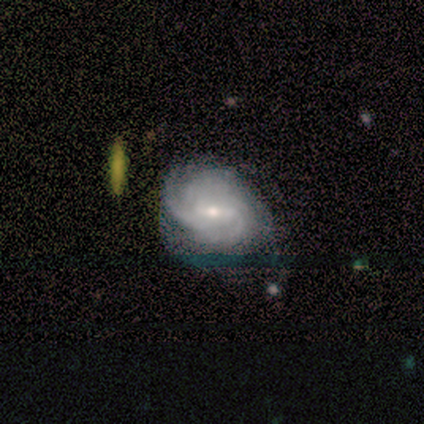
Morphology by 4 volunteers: smooth-or-featured: featured or disk: 100% | smooth: 0% | star or artifact: 0%
  disk-edge-on: no: 100% | yes: 0%
    bar: weak: 50% | strong: 25% | no: 25%
    has-spiral-arms: yes: 100% | no: 0%
      spiral-winding: medium: 75% | tight: 25% | loose: 0%
      spiral-arm-count: can't tell: 50% | 2: 25% | 3: 25% | 1: 0% | 4: 0% | more than 4: 0%
    bulge-size: small: 75% | moderate: 25% | dominant: 0% | large: 0% | none: 0%
  merging: none: 50% | minor disturbance: 25% | major disturbance: 25% | merger: 0%